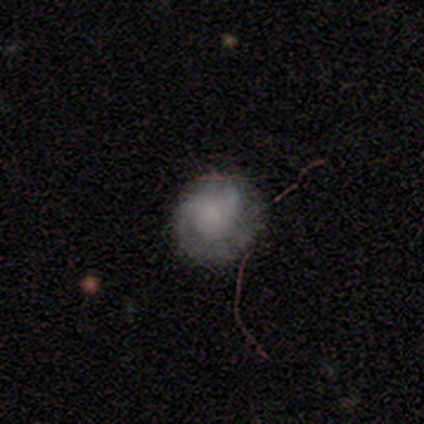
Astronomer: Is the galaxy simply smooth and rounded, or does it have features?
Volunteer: smooth — 43%, tied with featured or disk at 43%.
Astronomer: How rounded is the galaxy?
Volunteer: round — 100%.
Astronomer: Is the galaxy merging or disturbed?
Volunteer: none — 83%.